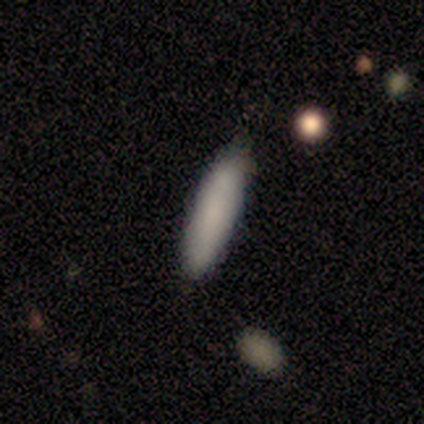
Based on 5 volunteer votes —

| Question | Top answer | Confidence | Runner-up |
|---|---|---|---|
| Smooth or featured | smooth | 100% | — |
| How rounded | cigar-shaped | 80% | in between (20%) |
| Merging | none | 100% | — |